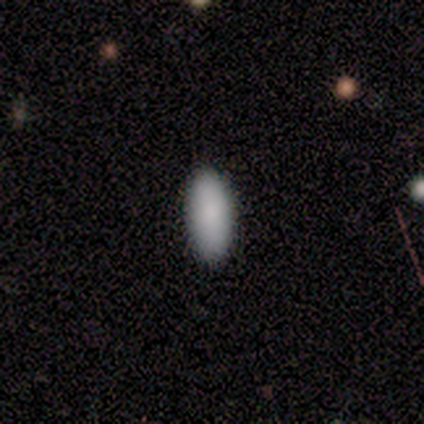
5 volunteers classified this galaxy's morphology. This is clearly a smooth galaxy (100%). How rounded: clearly in between (80%). Merging: clearly none (100%).